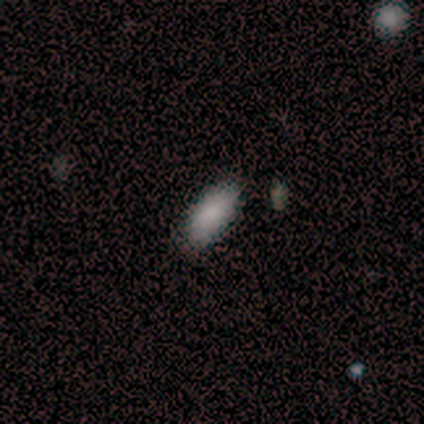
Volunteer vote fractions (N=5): smooth-or-featured: smooth: 80% | star or artifact: 20% | featured or disk: 0%
  how-rounded: in between: 100% | round: 0% | cigar-shaped: 0%
  merging: none: 75% | minor disturbance: 25% | major disturbance: 0% | merger: 0%